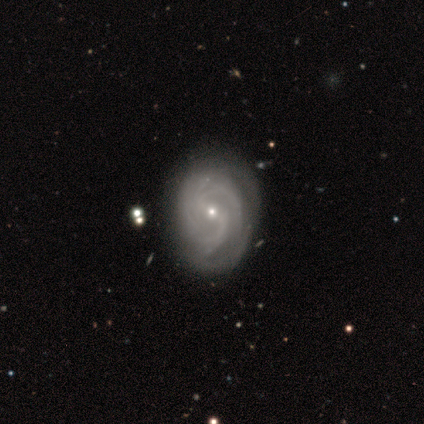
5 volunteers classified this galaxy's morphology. Overall: featured or disk (100%). Edge-on disk: no (100%). Bar: no (60%; weak 40%). Spiral arms: yes (100%). Spiral arm count: 3 (60%; can't tell 40%). Spiral winding: tight (60%; medium 40%). Bulge size: small (100%). Merging: minor disturbance (60%; none 40%).